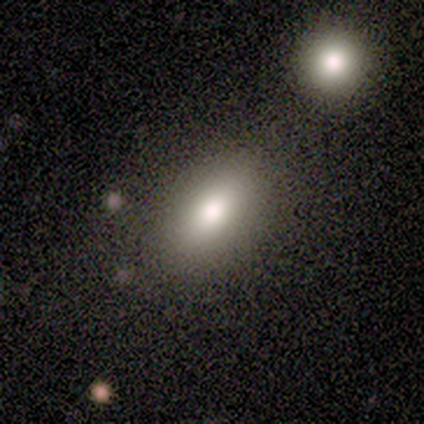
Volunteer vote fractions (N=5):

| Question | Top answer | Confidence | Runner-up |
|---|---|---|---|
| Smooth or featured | smooth | 60% | featured or disk (20%) |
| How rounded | in between | 100% | — |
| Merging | none | 50% | tied: merger (50%) |